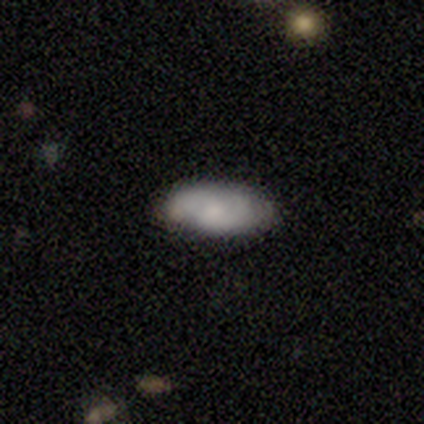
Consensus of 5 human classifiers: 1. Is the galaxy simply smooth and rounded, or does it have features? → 60% smooth, 40% featured or disk, 0% star or artifact.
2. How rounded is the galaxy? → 67% in between, 33% round, 0% cigar-shaped.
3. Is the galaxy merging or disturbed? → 60% minor disturbance, 40% none, 0% major disturbance, 0% merger.